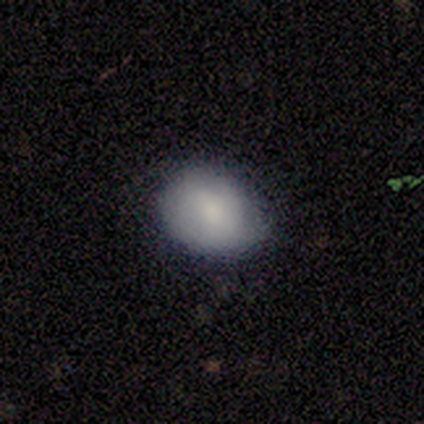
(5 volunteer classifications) Volunteers were most divided on "how rounded": round: 80%, in between: 20%, cigar-shaped: 0%. More confident: smooth or featured — smooth (100%); merging — none (100%).